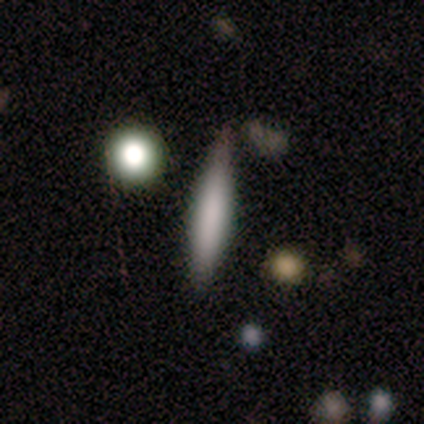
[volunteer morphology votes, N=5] smooth_or_featured: smooth (p=0.60) [alt: featured or disk p=0.40]
how_rounded: cigar-shaped (p=0.67) [alt: in between p=0.33]
merging: none (p=0.80) [alt: minor disturbance p=0.20]